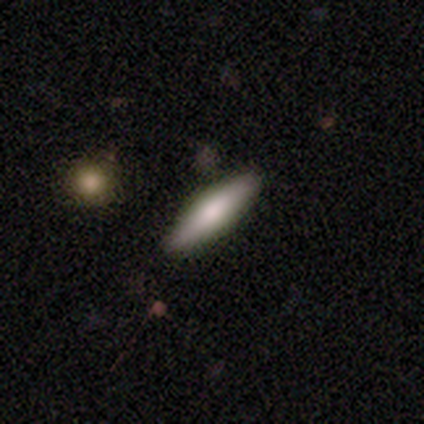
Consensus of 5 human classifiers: Overall: smooth (80%). How rounded: cigar-shaped (100%). Merging: none (100%).